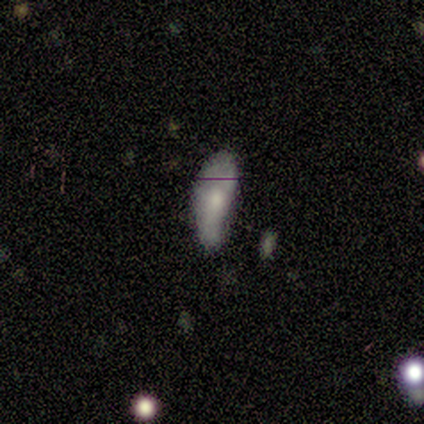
A smooth galaxy with no disk features (100%) that is in between round and cigar-shaped (75%).

Vote fractions:
- Smooth or featured? smooth: 100% / featured or disk: 0% / star or artifact: 0%
- How rounded? in between: 75% / cigar-shaped: 25% / round: 0%
- Merging? minor disturbance: 50% / none: 25% / major disturbance: 25% / merger: 0%